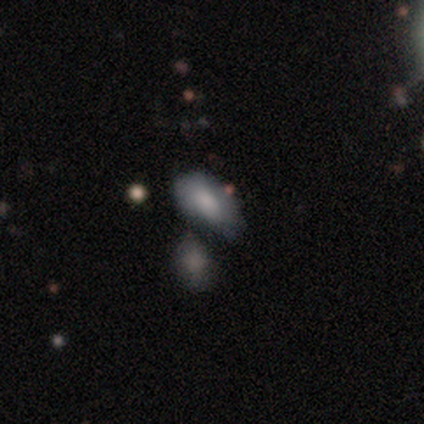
Overall: smooth (75%). How rounded: in between (100%). Merging: minor disturbance (50%; none 25%).